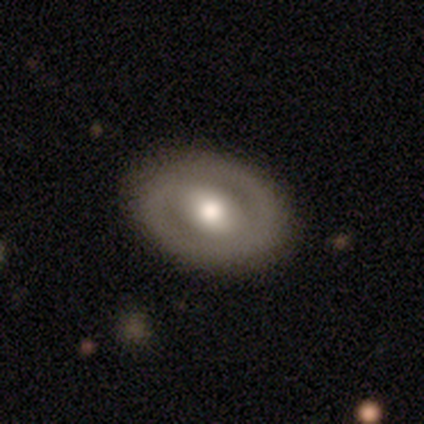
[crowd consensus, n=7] smooth 57%, featured or disk 43%, star or artifact 0%. Down the decision tree: how rounded — in between (75%); merging — none (86%).